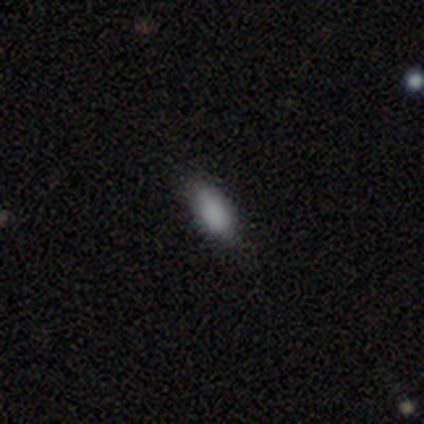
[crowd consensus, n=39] This is clearly a smooth galaxy (87%). How rounded: likely in between (79%). Merging: likely none (61%).